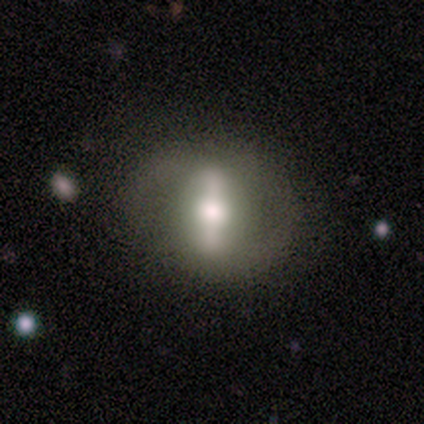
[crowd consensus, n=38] This appears to be a featured or disk galaxy (66%) with a strong bar (90%), 2 (100%) medium (67%) spiral arms (60%) and a moderate central bulge (50%). Merging: none (64%).